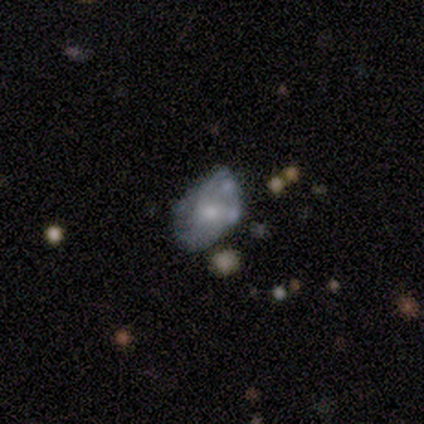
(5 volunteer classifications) A smooth galaxy with no disk features (60%) that is in between round and cigar-shaped (100%).

Vote fractions:
- Smooth or featured? smooth: 60% / featured or disk: 20% / star or artifact: 20%
- How rounded? in between: 100% / round: 0% / cigar-shaped: 0%
- Merging? none: 75% / minor disturbance: 25% / major disturbance: 0% / merger: 0%